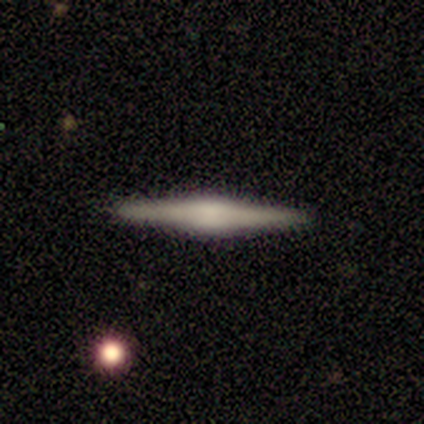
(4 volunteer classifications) This appears to be a featured or disk galaxy (75%) viewed edge-on (100%) with a boxy central bulge (33%, tied with none and rounded). Merging: none (75%).